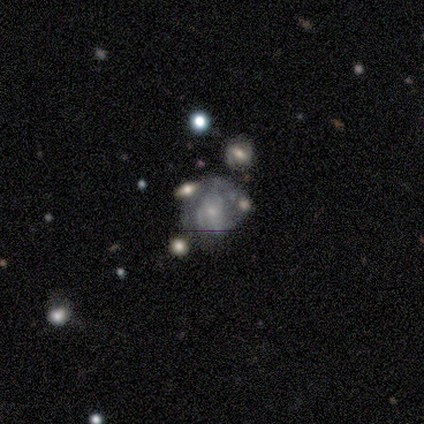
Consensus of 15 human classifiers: Volunteers were most divided on "merging": none: 36%, minor disturbance: 29%, major disturbance: 21%, merger: 14%. More confident: edge-on disk — no (100%); spiral winding — tight (90%); smooth or featured — featured or disk (87%); spiral arms — yes (77%); bulge size — small (77%); bar — no (77%); spiral arm count — can't tell (50%).